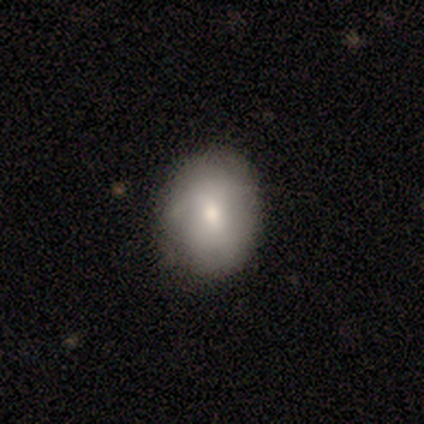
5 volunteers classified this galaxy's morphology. type=smooth (80%); roundness=round (50%, tied with in between); merging=none (80%).